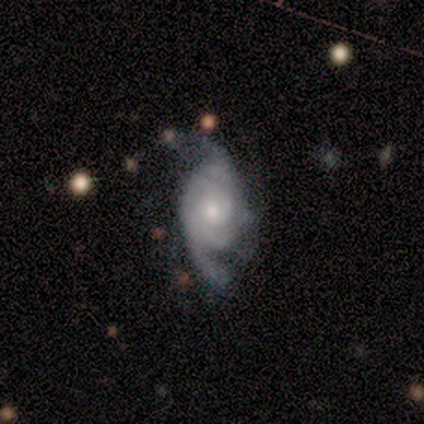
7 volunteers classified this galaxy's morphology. Volunteers were most divided on "spiral winding" (2-way tie): medium: 40%, loose: 40%, tight: 20%; "merging" (2-way tie): none: 43%, major disturbance: 43%, minor disturbance: 14%, merger: 0%. Remaining: spiral arms — yes (100%); smooth or featured — featured or disk (86%); edge-on disk — no (83%); bar — no (80%); bulge size — small (60%); spiral arm count — 3 (40%).